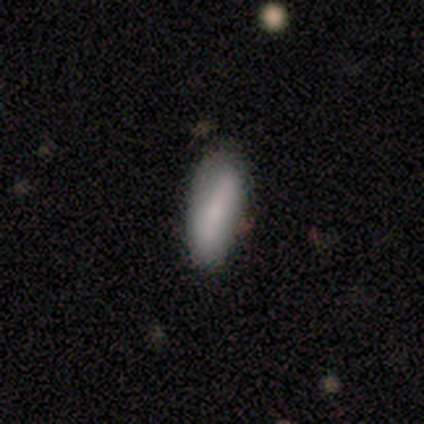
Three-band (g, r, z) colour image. It shows a smooth galaxy with no disk features (57%) that is in between round and cigar-shaped (100%). Merging: none (71%).